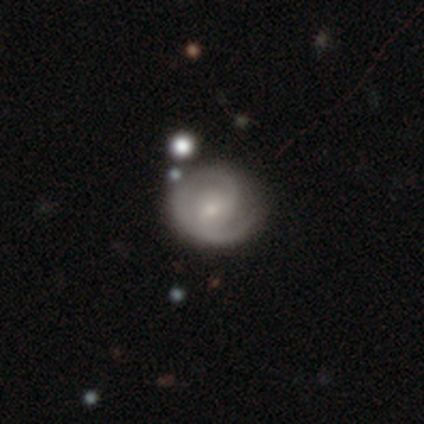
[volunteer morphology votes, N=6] Overall: featured or disk (100%). Edge-on disk: no (100%). Bar: no (67%; weak 33%). Spiral arms: yes (100%). Spiral arm count: 2 (83%). Spiral winding: medium (50%; tight 33%). Bulge size: moderate (50%, tied with small). Merging: none (83%).